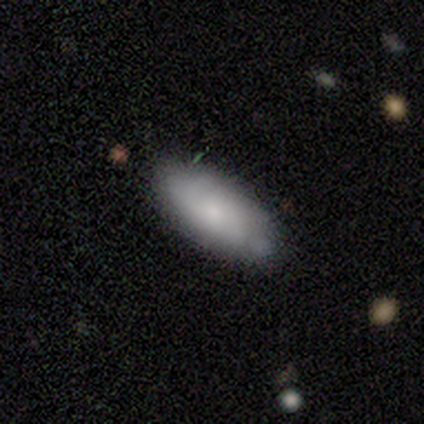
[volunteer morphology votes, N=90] Smooth or featured? 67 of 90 (74%) said smooth. How rounded? 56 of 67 (84%) said in between. Merging? 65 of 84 (77%) said none.